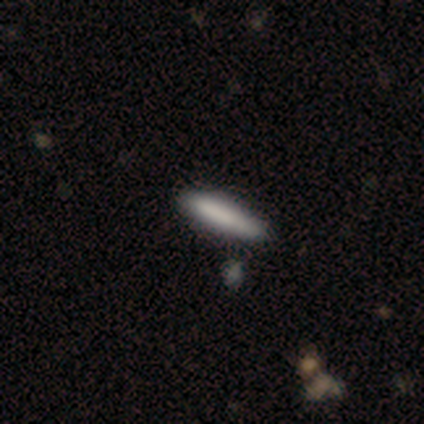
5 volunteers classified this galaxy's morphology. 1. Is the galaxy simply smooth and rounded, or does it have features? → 80% smooth, 20% star or artifact, 0% featured or disk.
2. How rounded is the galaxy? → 75% cigar-shaped, 25% in between, 0% round.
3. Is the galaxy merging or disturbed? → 75% none, 25% minor disturbance, 0% major disturbance, 0% merger.